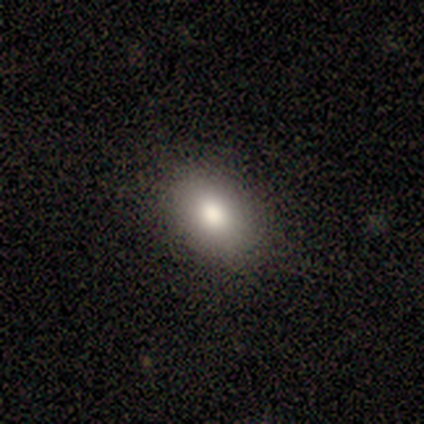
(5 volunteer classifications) Morphology: type=smooth (100%); roundness=in between (100%); merging=none (100%).